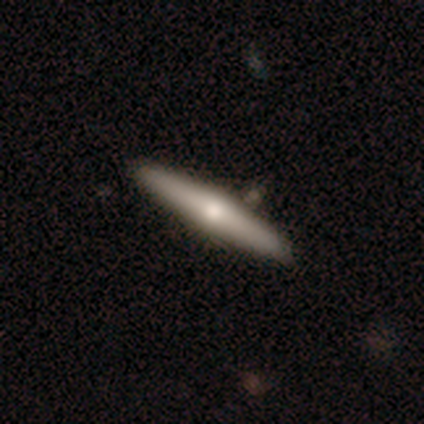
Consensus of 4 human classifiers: smooth_or_featured: star or artifact (p=0.50) [alt: smooth p=0.25]